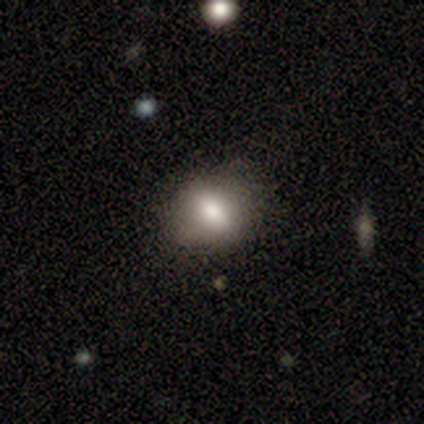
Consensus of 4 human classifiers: A smooth galaxy with no disk features (50%, tied with featured or disk) that is in between round and cigar-shaped (100%).

Vote fractions:
- Smooth or featured? smooth: 50% (tied) / featured or disk: 50% (tied) / star or artifact: 0%
- How rounded? in between: 100% / round: 0% / cigar-shaped: 0%
- Merging? none: 75% / merger: 25% / minor disturbance: 0% / major disturbance: 0%